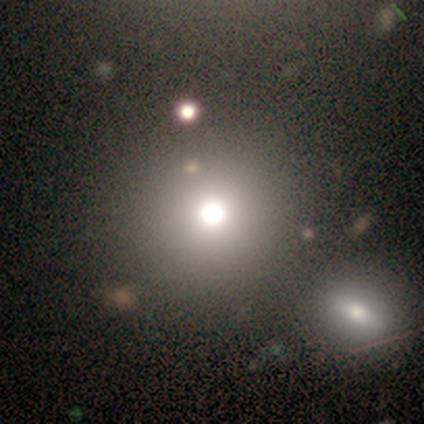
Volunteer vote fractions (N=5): Overall: smooth (60%; featured or disk 40%). How rounded: round (100%). Merging: none (60%; major disturbance 20%).